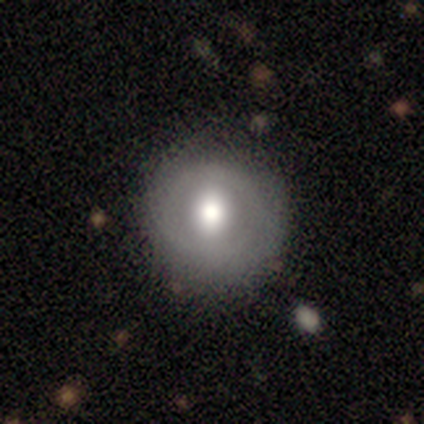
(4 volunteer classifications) smooth-or-featured: smooth: 75% | featured or disk: 25% | star or artifact: 0%
  how-rounded: round: 100% | in between: 0% | cigar-shaped: 0%
  merging: none: 100% | minor disturbance: 0% | major disturbance: 0% | merger: 0%